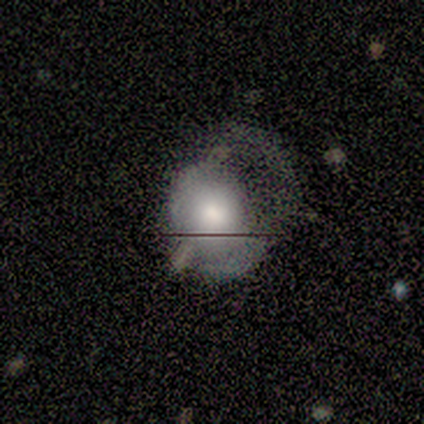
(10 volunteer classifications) Volunteers were most divided on "how rounded" (2-way tie): round: 50%, in between: 50%, cigar-shaped: 0%. More confident: merging — major disturbance (80%); smooth or featured — smooth (60%).